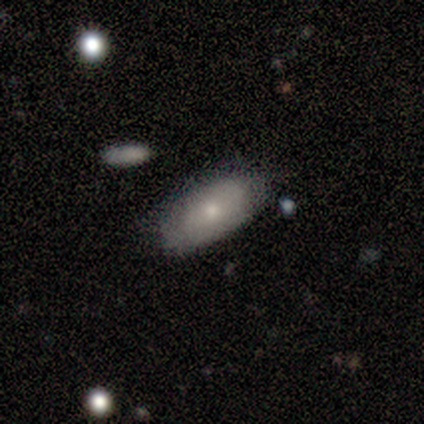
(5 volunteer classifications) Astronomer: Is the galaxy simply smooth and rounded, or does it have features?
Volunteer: smooth — 60%.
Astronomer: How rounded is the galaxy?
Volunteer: in between — 100%.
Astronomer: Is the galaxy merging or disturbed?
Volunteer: none — 75%.